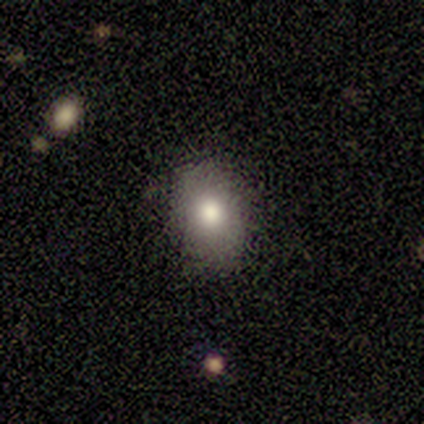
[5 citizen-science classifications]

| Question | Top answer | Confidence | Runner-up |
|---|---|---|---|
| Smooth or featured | smooth | 80% | star or artifact (20%) |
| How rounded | in between | 100% | — |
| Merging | none | 75% | minor disturbance (25%) |